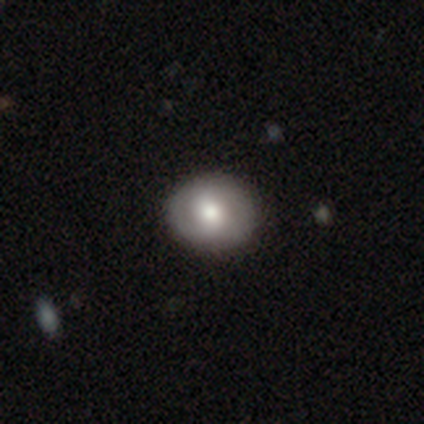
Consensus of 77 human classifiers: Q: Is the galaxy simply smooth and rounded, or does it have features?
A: smooth — 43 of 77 (56%).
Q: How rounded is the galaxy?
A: round — 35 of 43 (81%).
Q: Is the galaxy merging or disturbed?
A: none — 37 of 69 (54%).